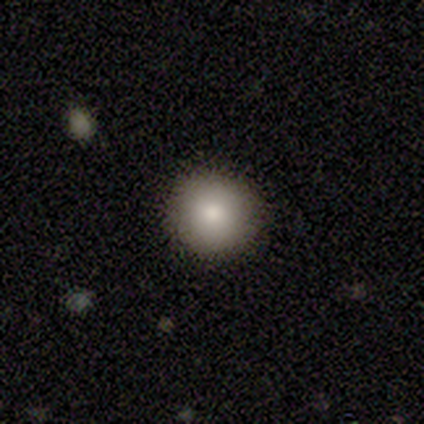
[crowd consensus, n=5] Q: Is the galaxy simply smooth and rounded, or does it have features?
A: smooth — 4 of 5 (80%).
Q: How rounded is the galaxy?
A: round — 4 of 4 (100%).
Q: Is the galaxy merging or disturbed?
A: none — 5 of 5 (100%).